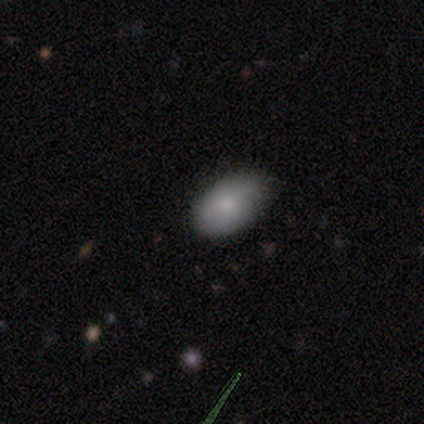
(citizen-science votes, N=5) Q: Smooth or featured?
A: smooth (80%); runner-up: featured or disk (20%)
Q: How rounded?
A: in between (100%)
Q: Merging?
A: minor disturbance (60%); runner-up: none (40%)